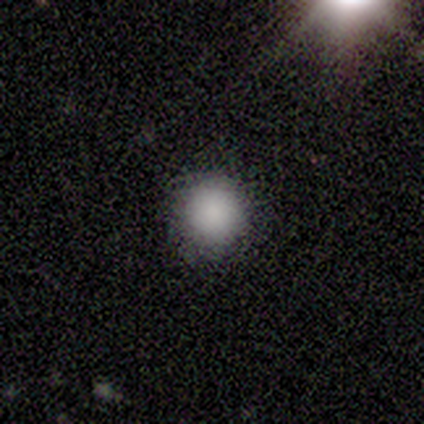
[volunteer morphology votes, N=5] A smooth galaxy with no disk features (100%) that is round (100%). Merging: none (100%).